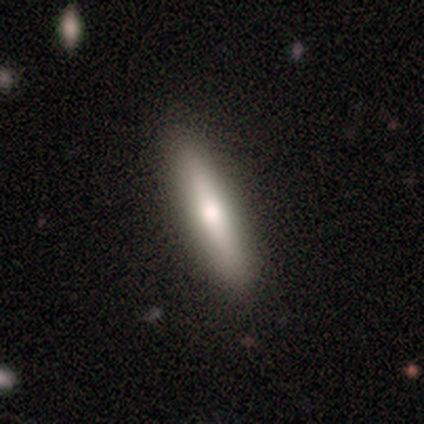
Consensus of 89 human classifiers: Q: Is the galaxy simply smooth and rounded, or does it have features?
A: smooth — 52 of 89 (58%).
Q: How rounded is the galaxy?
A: cigar-shaped — 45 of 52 (87%).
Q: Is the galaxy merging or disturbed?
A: none — 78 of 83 (94%).